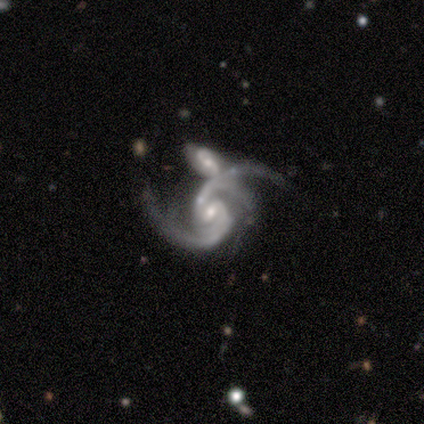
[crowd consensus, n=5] Q: Smooth or featured?
A: featured or disk (100%)
Q: Edge-on disk?
A: no (100%)
Q: Bar?
A: weak (60%); runner-up: no (40%)
Q: Spiral arms?
A: yes (100%)
Q: Spiral winding?
A: medium (80%); runner-up: tight (20%)
Q: Spiral arm count?
A: 2 (60%); runner-up: 3 (40%)
Q: Bulge size?
A: moderate (40%); tied with: small (40%)
Q: Merging?
A: merger (80%); runner-up: minor disturbance (20%)